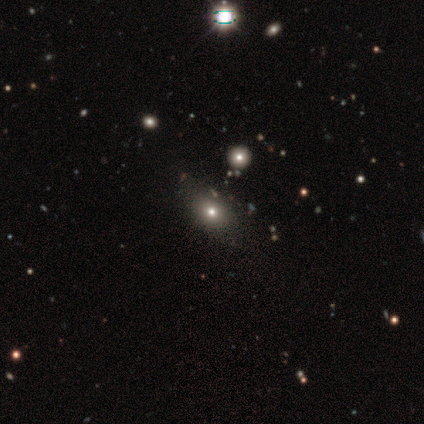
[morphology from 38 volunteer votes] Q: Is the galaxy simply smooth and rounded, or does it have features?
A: smooth — 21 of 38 (55%).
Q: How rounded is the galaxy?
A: in between — 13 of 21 (62%).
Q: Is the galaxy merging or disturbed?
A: none — 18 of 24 (75%).